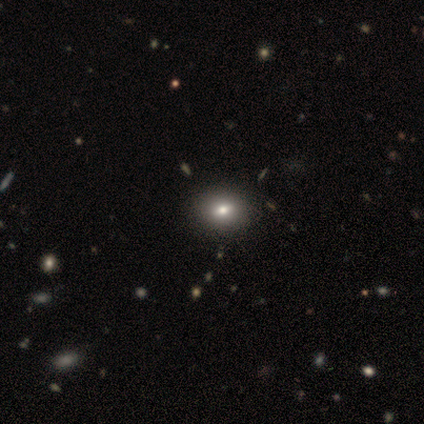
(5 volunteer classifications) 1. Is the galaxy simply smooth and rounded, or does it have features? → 60% smooth, 40% featured or disk, 0% star or artifact.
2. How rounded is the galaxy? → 100% in between, 0% round, 0% cigar-shaped.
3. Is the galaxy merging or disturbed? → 80% none, 20% minor disturbance, 0% major disturbance, 0% merger.